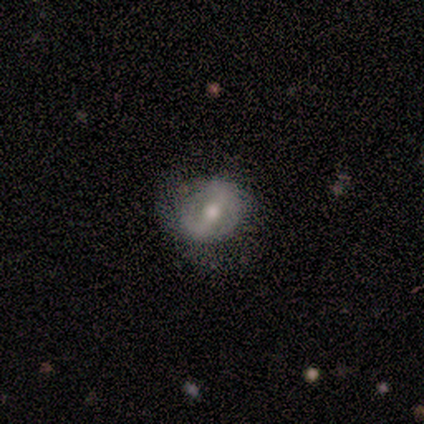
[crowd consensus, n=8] Overall: featured or disk (88%). Edge-on disk: no (100%). Bar: no (43%; strong 29%). Spiral arms: yes (86%). Spiral arm count: 2 (83%). Spiral winding: loose (50%; medium 33%). Bulge size: moderate (86%). Merging: none (86%).